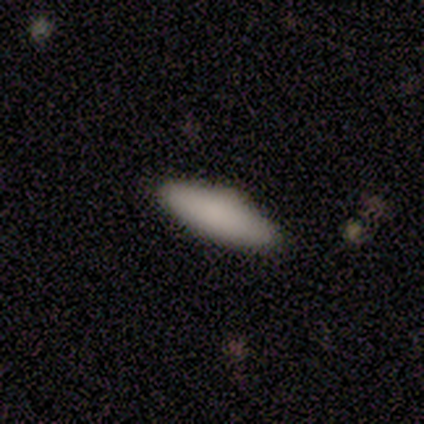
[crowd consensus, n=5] This is clearly a smooth galaxy (100%). How rounded: clearly in between (80%). Merging: clearly none (80%).